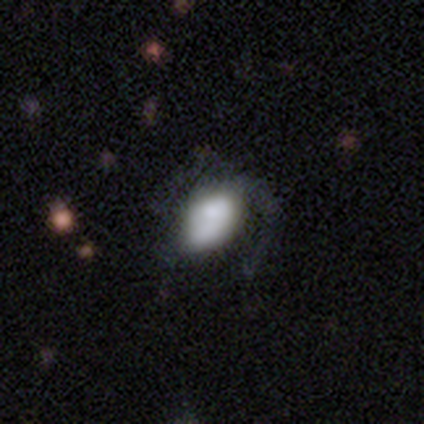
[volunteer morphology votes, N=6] A featured or disk galaxy (67%) with no bar (100%), 1 (100%) medium (50%, tied with loose) spiral arms (50%, tied with no) and a large central bulge (50%).

Vote fractions:
- Smooth or featured? featured or disk: 67% / smooth: 33% / star or artifact: 0%
- Edge-on disk? no: 100% / yes: 0%
- Bar? no: 100% / strong: 0% / weak: 0%
- Spiral arms? yes: 50% (tied) / no: 50% (tied)
- Spiral winding? medium: 50% (tied) / loose: 50% (tied) / tight: 0%
- Spiral arm count? 1: 100% / 2: 0% / 3: 0% / 4: 0% / more than 4: 0% / can't tell: 0%
- Bulge size? large: 50% / small: 25% / none: 25% / dominant: 0% / moderate: 0%
- Merging? none: 67% / major disturbance: 33% / minor disturbance: 0% / merger: 0%